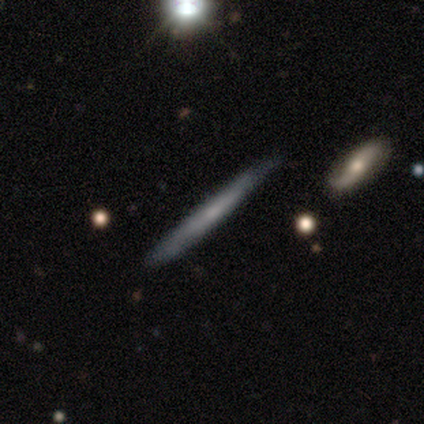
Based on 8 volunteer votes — smooth-or-featured: smooth: 50% (tied) | featured or disk: 50% (tied) | star or artifact: 0%
  how-rounded: cigar-shaped: 100% | round: 0% | in between: 0%
  merging: none: 88% | minor disturbance: 12% | major disturbance: 0% | merger: 0%